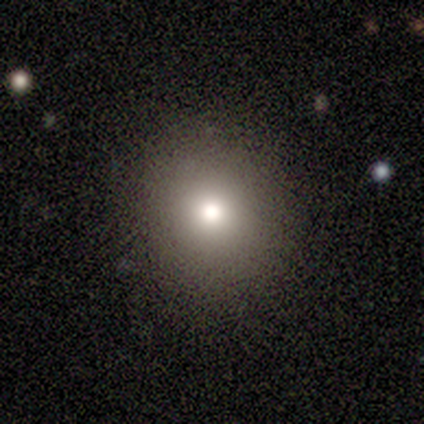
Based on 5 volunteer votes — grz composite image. It shows a smooth galaxy with no disk features (80%) that is round (100%). Merging: none (100%).